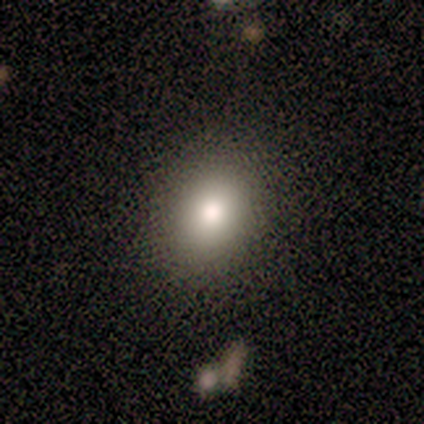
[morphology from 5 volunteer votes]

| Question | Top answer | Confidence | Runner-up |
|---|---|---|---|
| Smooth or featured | smooth | 80% | star or artifact (20%) |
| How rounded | round | 50% | tied: in between (50%) |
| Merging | none | 100% | — |